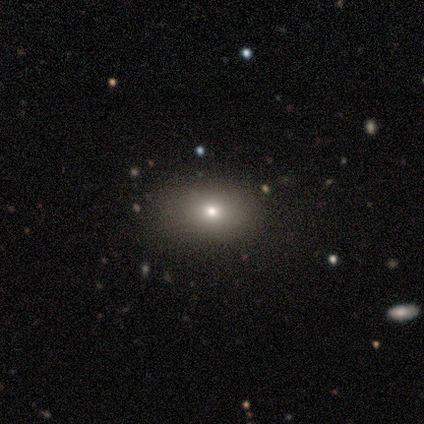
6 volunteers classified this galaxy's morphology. smooth_or_featured: featured or disk (p=0.50) [alt: smooth p=0.33]
disk_edge_on: no (p=1.00)
bar: no (p=1.00)
has_spiral_arms: no (p=1.00)
bulge_size: small (p=1.00)
merging: none (p=1.00)